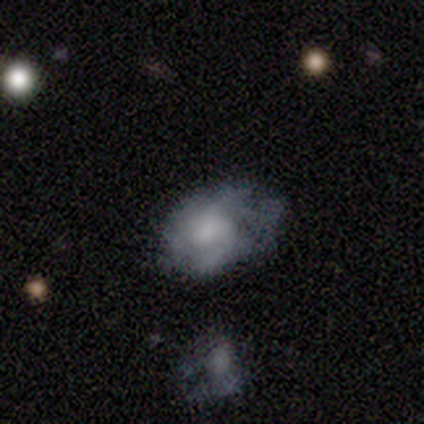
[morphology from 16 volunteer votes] This appears to be a smooth galaxy with no disk features (56%) that is in between round and cigar-shaped (89%). Merging: none (47%).